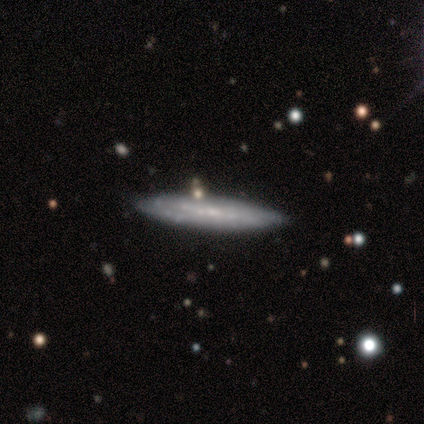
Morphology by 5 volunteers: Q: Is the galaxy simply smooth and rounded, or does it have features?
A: smooth — 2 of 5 (40%, tied with featured or disk).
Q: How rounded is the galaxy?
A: cigar-shaped — 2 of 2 (100%).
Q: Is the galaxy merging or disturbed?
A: none — 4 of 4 (100%).